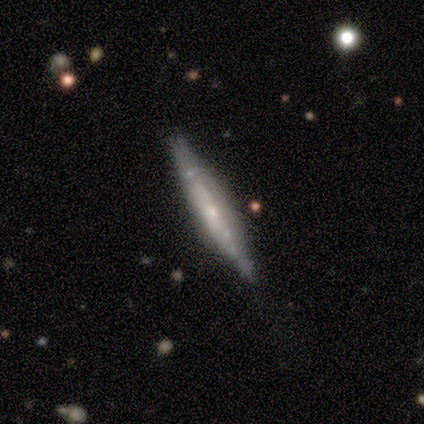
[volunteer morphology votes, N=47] Overall: featured or disk (85%). Edge-on disk: yes (95%). Edge-on bulge: rounded (42%; boxy 29%). Merging: none (79%).